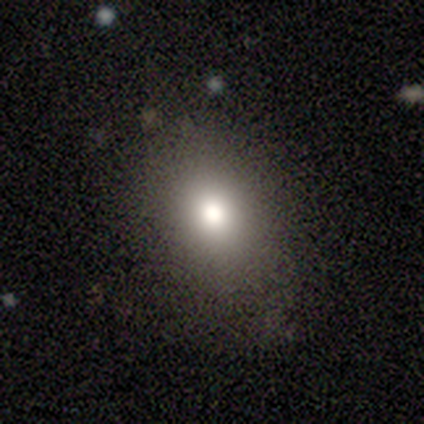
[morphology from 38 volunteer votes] smooth_or_featured: smooth (p=0.76) [alt: featured or disk p=0.13]
how_rounded: in between (p=0.62) [alt: round p=0.38]
merging: none (p=0.74) [alt: minor disturbance p=0.21]